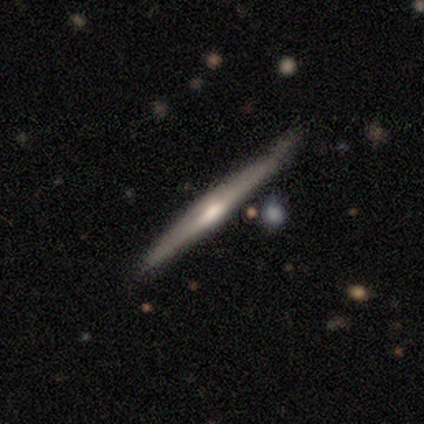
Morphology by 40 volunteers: A featured or disk galaxy (75%) viewed edge-on (97%) with a rounded central bulge (66%). Merging: none (87%).